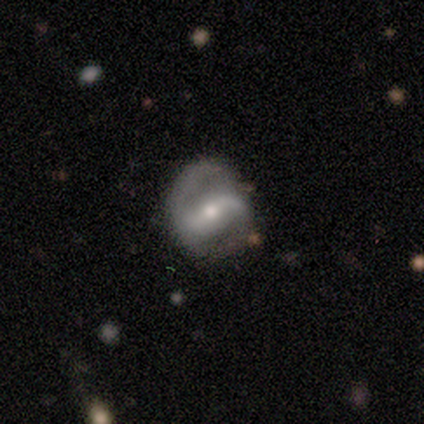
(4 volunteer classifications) This appears to be a featured or disk galaxy (100%) with a weak bar (67%), 2 (100%) loose (67%) spiral arms (100%) and a moderate central bulge (67%). Merging: none (50%).